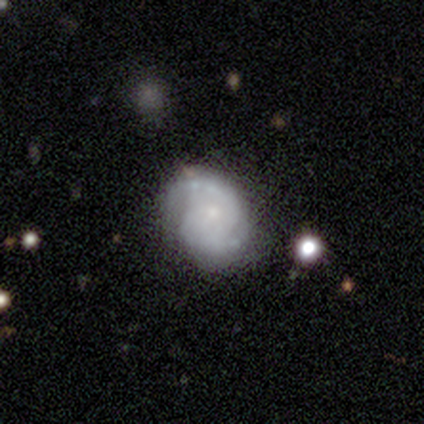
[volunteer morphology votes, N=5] Smooth or featured? featured or disk (80%)
Edge-on disk? no (100%)
Bar? no (75%)
Spiral arms? yes (100%)
Spiral winding? medium (100%)
Spiral arm count? 2 (75%)
Bulge size? small (75%)
Merging? none (80%)